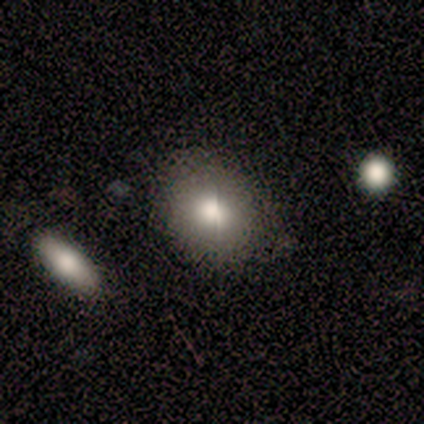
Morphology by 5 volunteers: Smooth or featured? smooth (100%)
How rounded? round (40%, tied with in between)
Merging? none (80%)